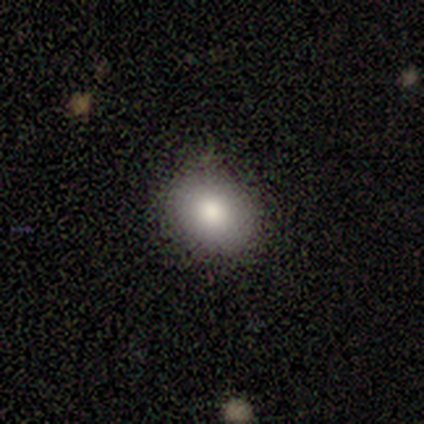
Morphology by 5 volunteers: Smooth or featured?
  - smooth: 80% *
  - star or artifact: 20%
  - featured or disk: 0%
How rounded?
  - round: 100% *
  - in between: 0%
  - cigar-shaped: 0%
Merging?
  - none: 75% *
  - minor disturbance: 25%
  - major disturbance: 0%
  - merger: 0%